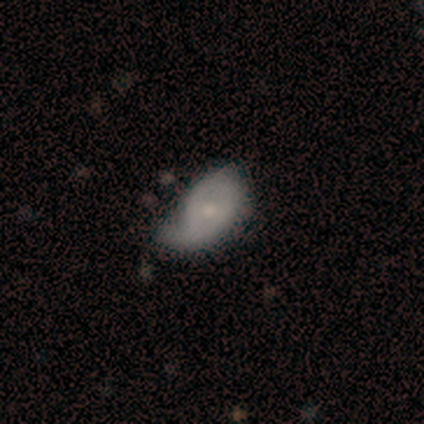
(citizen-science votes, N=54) smooth-or-featured: featured or disk: 56% | smooth: 37% | star or artifact: 7%
  disk-edge-on: no: 100% | yes: 0%
    bar: no: 60% | weak: 33% | strong: 7%
    has-spiral-arms: yes: 73% | no: 27%
      spiral-winding: loose: 36% | tight: 32% | medium: 32%
      spiral-arm-count: 1: 59% | 2: 32% | can't tell: 9% | 3: 0% | 4: 0% | more than 4: 0%
    bulge-size: moderate: 40% (tied) | small: 40% (tied) | dominant: 7% | large: 7% | none: 7%
  merging: major disturbance: 36% | minor disturbance: 34% | none: 28% | merger: 2%